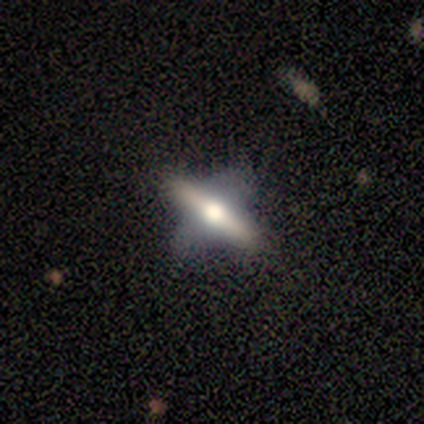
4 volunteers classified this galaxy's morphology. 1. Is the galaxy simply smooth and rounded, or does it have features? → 50% featured or disk, 25% smooth, 25% star or artifact.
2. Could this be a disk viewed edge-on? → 50% yes (tied), 50% no (tied).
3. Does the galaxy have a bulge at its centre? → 100% rounded, 0% boxy, 0% none.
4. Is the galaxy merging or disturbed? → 67% major disturbance, 33% none, 0% minor disturbance, 0% merger.